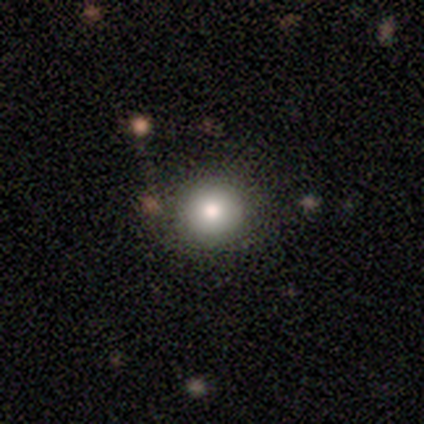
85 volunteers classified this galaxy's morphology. Smooth or featured? smooth (76%)
How rounded? round (92%)
Merging? none (84%)